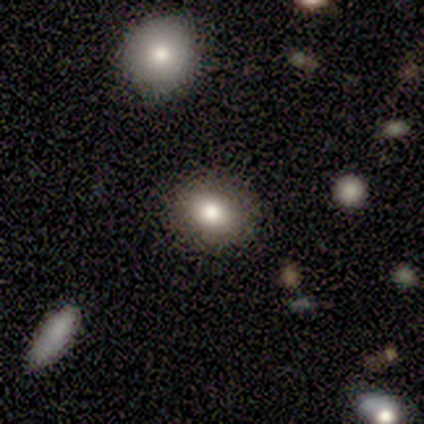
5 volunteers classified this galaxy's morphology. smooth 80%, featured or disk 20%, star or artifact 0%. Down the decision tree: how rounded — round (50%, tied with in between); merging — none (80%).